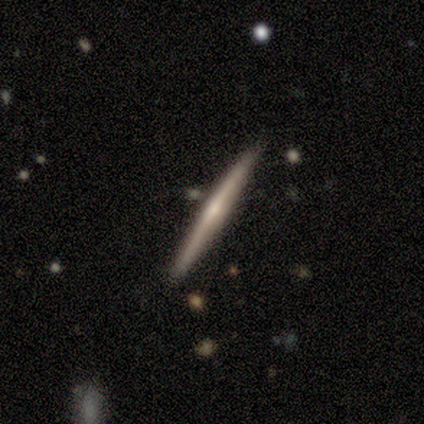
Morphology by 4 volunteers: Overall: smooth (50%, tied with featured or disk). How rounded: cigar-shaped (100%). Merging: none (100%).